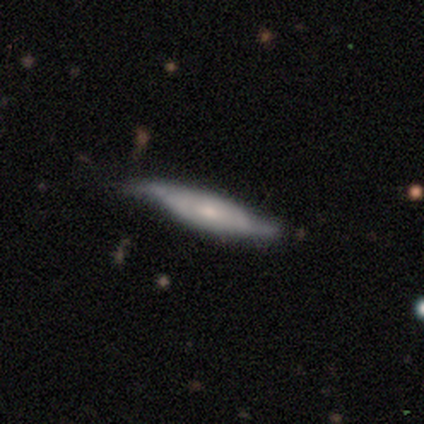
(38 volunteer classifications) smooth-or-featured: featured or disk: 74% | smooth: 26% | star or artifact: 0%
  disk-edge-on: no: 57% | yes: 43%
    bar: no: 81% | weak: 19% | strong: 0%
    has-spiral-arms: yes: 75% | no: 25%
      spiral-winding: loose: 75% | medium: 17% | tight: 8%
      spiral-arm-count: 2: 92% | can't tell: 8% | 1: 0% | 3: 0% | 4: 0% | more than 4: 0%
    bulge-size: small: 50% | moderate: 25% | none: 19% | large: 6% | dominant: 0%
  merging: none: 68% | minor disturbance: 26% | major disturbance: 3% | merger: 3%